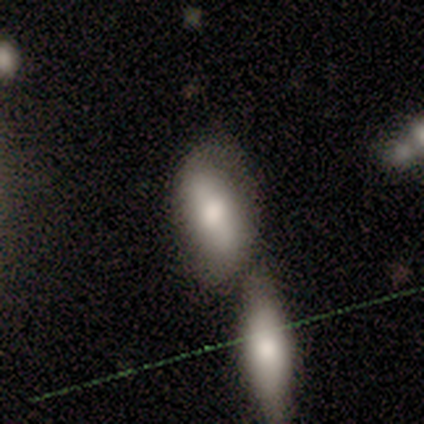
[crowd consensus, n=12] This appears to be a smooth galaxy with no disk features (67%) that is in between round and cigar-shaped (100%). Merging: none (64%).